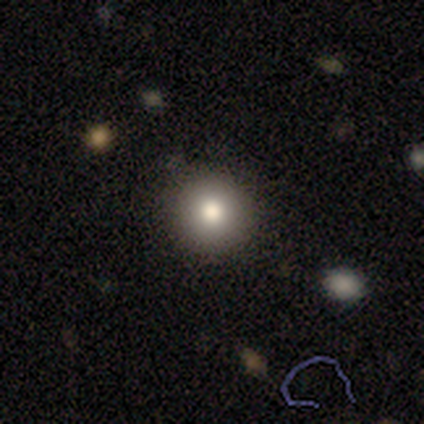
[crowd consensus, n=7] smooth 86%, star or artifact 14%, featured or disk 0%. Down the decision tree: how rounded — round (100%); merging — none (100%).